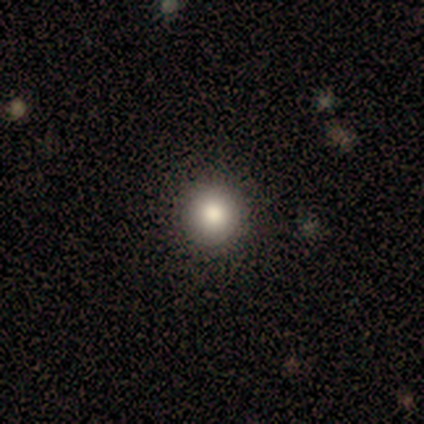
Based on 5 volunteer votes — Overall: smooth (60%; featured or disk 20%). How rounded: round (100%). Merging: none (75%).